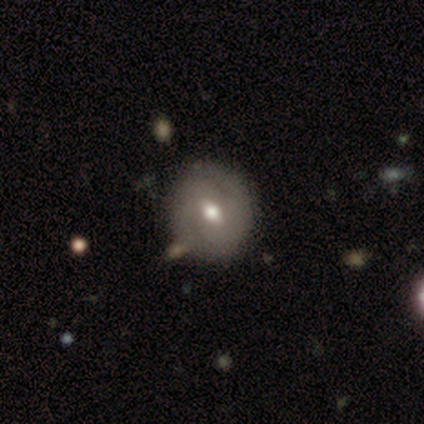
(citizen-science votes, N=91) This appears to be a featured or disk galaxy (60%) with a weak bar (56%), 2 (81%) tight (52%) spiral arms (78%) and a moderate central bulge (78%). Merging: none (80%).